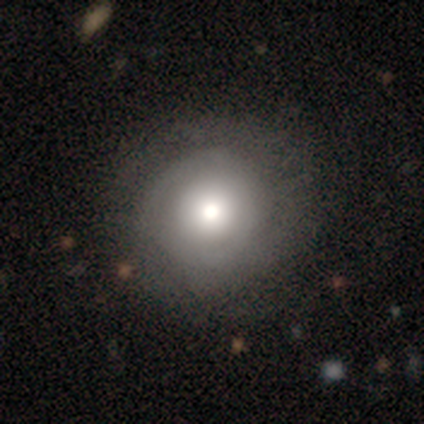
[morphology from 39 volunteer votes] smooth_or_featured: smooth (p=0.49) [tied with: featured or disk p=0.49]
how_rounded: round (p=1.00)
merging: none (p=0.74) [alt: minor disturbance p=0.03]